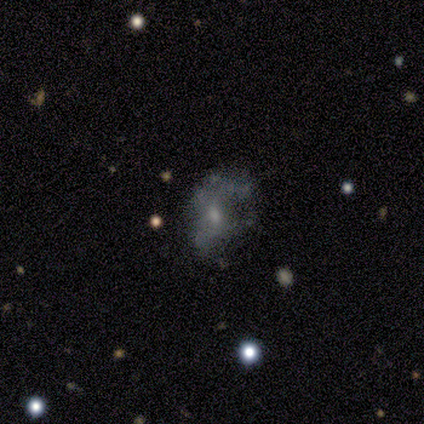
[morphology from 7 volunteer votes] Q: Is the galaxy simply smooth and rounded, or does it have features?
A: featured or disk — 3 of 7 (43%).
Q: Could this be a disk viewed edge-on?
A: no — 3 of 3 (100%).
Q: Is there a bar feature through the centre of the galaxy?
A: no — 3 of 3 (100%).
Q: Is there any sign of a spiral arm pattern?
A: no — 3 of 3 (100%).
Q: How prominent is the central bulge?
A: small — 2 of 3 (67%).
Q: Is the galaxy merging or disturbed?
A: major disturbance — 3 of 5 (60%).